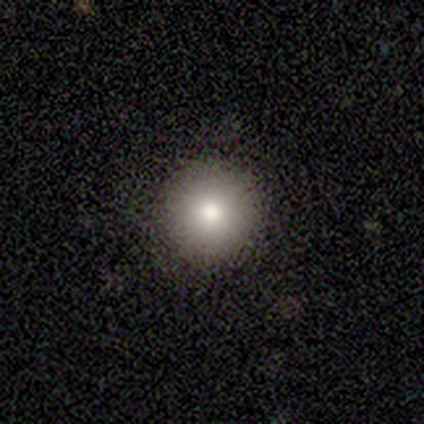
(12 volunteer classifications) smooth-or-featured: smooth: 75% | featured or disk: 25% | star or artifact: 0%
  how-rounded: round: 100% | in between: 0% | cigar-shaped: 0%
  merging: none: 100% | minor disturbance: 0% | major disturbance: 0% | merger: 0%